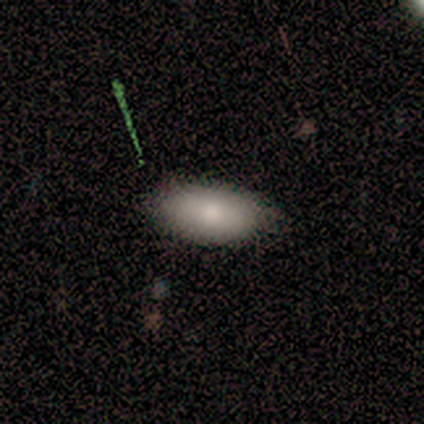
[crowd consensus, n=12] smooth-or-featured: smooth: 58% | featured or disk: 33% | star or artifact: 8%
  how-rounded: in between: 100% | round: 0% | cigar-shaped: 0%
  merging: none: 64% | minor disturbance: 27% | major disturbance: 9% | merger: 0%